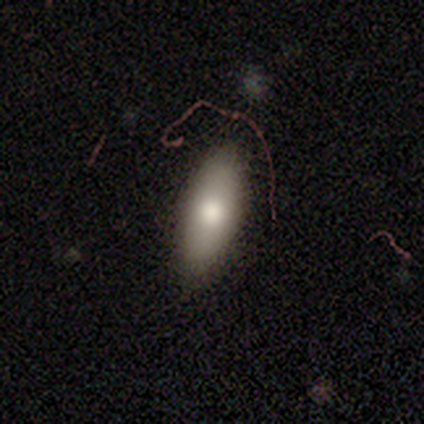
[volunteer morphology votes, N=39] smooth-or-featured: smooth: 79% | featured or disk: 15% | star or artifact: 5%
  how-rounded: in between: 61% | cigar-shaped: 39% | round: 0%
  merging: none: 73% | minor disturbance: 24% | major disturbance: 3% | merger: 0%